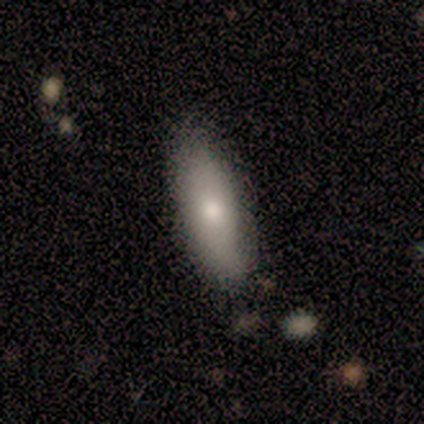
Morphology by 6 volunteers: Smooth or featured: featured or disk — 67% (smooth — 33%)
Edge-on disk: yes — 50% (tied with no — 50%)
Edge-on bulge: none — 50% (tied with rounded — 50%)
Merging: none — 67% (minor disturbance — 33%)